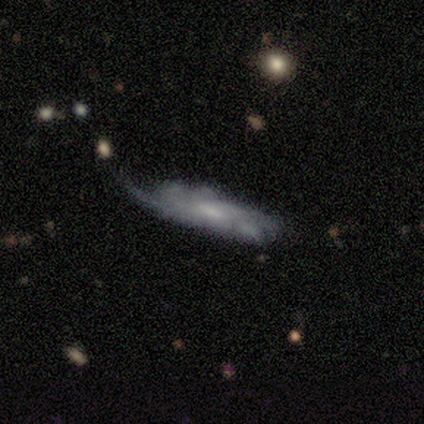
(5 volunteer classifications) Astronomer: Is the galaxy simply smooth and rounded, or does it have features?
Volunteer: featured or disk — 80%.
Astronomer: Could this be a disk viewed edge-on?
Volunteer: no — 75%.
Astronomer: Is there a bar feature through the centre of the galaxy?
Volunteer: no — 100%.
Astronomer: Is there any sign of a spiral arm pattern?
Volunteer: yes — 100%.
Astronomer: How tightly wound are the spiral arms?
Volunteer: tight — 33%, tied with medium and loose at 33%.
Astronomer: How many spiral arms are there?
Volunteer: can't tell — 67%.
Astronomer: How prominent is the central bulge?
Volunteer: moderate — 67%.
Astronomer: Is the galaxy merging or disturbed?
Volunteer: minor disturbance — 40% (runner-up: none, 20%).